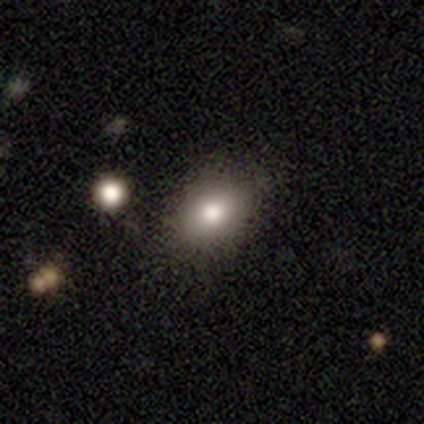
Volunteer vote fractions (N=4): This appears to be a smooth galaxy with no disk features (100%) that is round (50%, tied with in between). Merging: none (100%).